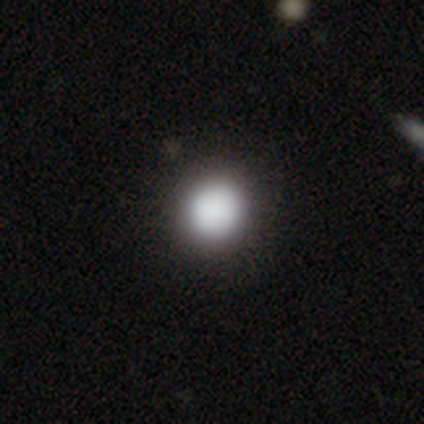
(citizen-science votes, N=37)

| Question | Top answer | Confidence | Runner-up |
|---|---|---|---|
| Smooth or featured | smooth | 84% | featured or disk (11%) |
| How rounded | round | 97% | in between (3%) |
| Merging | none | 57% | merger (6%) |